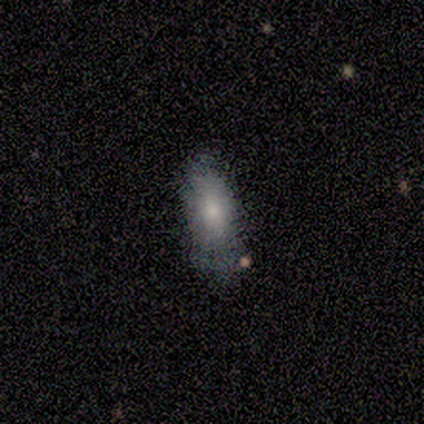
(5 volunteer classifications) Overall: smooth (80%). How rounded: in between (75%). Merging: none (60%; minor disturbance 40%).